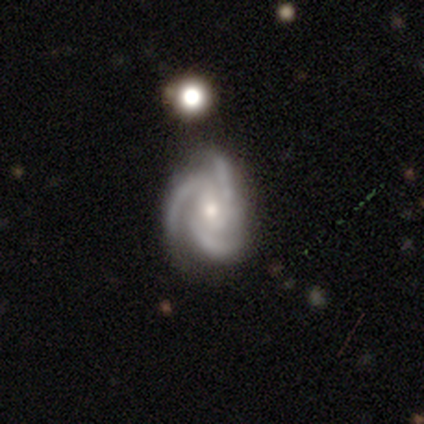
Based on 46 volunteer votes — Smooth or featured: featured or disk — 91% (star or artifact — 7%)
Edge-on disk: no — 100%
Bar: no — 60% (weak — 36%)
Spiral arms: yes — 100%
Spiral winding: tight — 50% (medium — 43%)
Spiral arm count: 3 — 95% (2 — 5%)
Bulge size: moderate — 50% (small — 45%)
Merging: none — 81% (minor disturbance — 19%)